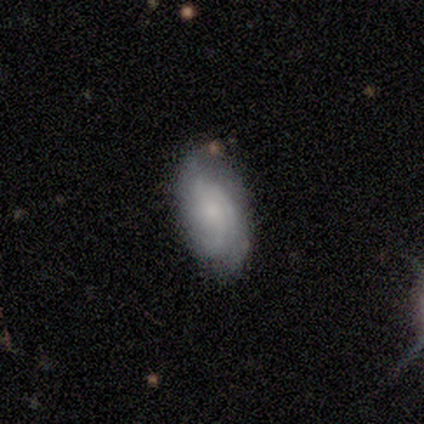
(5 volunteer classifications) Smooth or featured? smooth (60%)
How rounded? in between (67%)
Merging? none (100%)